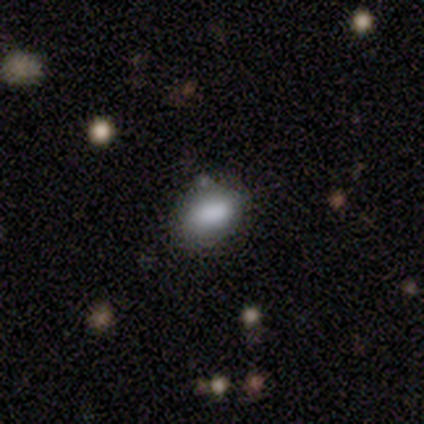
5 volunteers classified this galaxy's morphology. smooth-or-featured: smooth: 60% | star or artifact: 40% | featured or disk: 0%
  how-rounded: in between: 67% | round: 33% | cigar-shaped: 0%
  merging: none: 67% | minor disturbance: 33% | major disturbance: 0% | merger: 0%